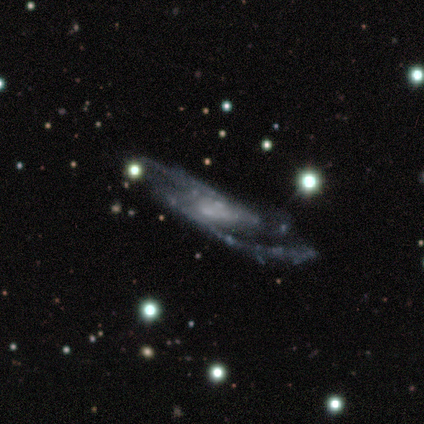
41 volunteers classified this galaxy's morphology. type=featured or disk (83%); edge-on=no (88%); bar=weak (47%); spiral arms=yes (90%); winding=medium (56%); arm count=2 (81%); bulge=none (53%); merging=none (44%).